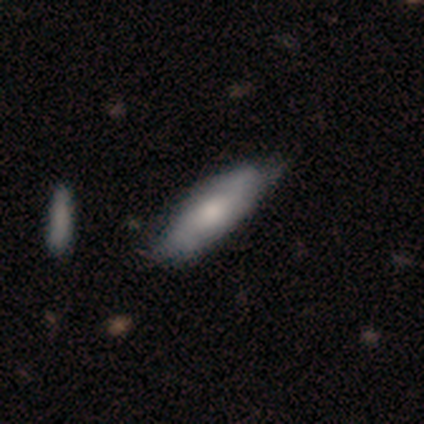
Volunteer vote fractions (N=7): Smooth or featured: smooth — 71% (featured or disk — 29%)
How rounded: cigar-shaped — 60% (in between — 40%)
Merging: minor disturbance — 57% (none — 43%)